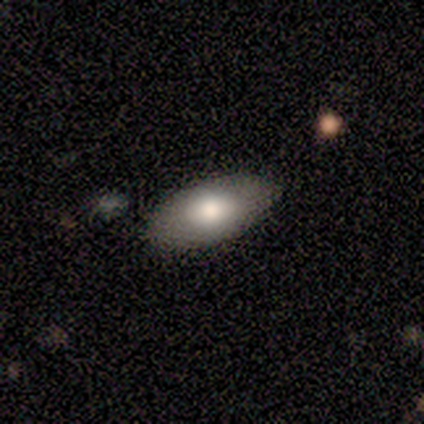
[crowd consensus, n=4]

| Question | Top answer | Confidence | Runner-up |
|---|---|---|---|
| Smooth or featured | smooth | 75% | featured or disk (25%) |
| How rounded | in between | 67% | cigar-shaped (33%) |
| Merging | none | 75% | minor disturbance (25%) |